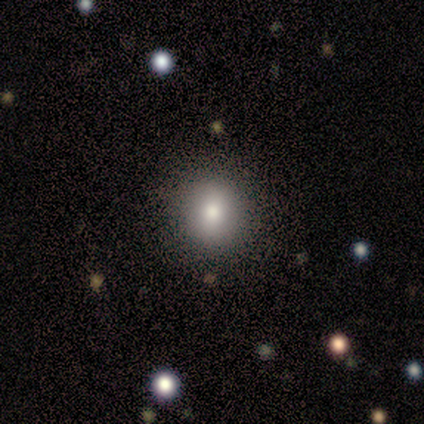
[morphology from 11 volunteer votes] type=smooth (73%); roundness=round (88%); merging=none (89%).